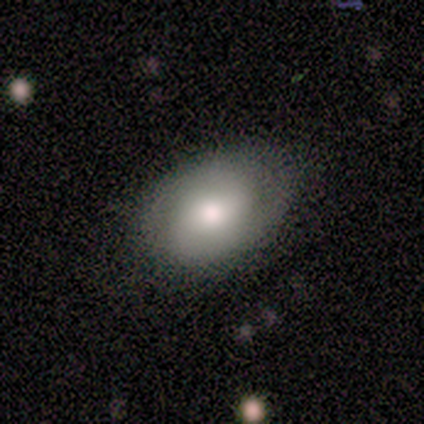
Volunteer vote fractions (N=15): Q: Smooth or featured?
A: smooth (53%); runner-up: featured or disk (40%)
Q: How rounded?
A: in between (100%)
Q: Merging?
A: none (79%); runner-up: minor disturbance (21%)